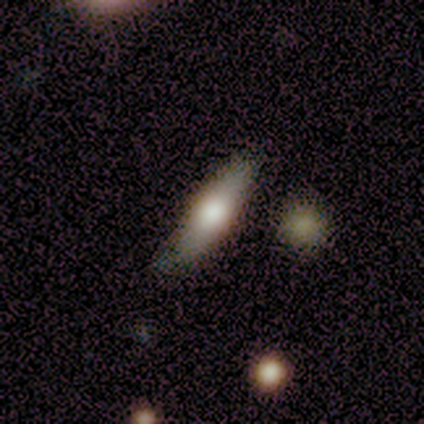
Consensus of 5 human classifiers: A smooth galaxy with no disk features (60%) that is cigar-shaped (67%). Merging: none (75%).